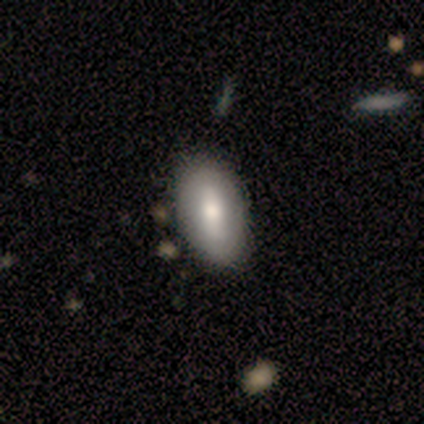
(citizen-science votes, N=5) A smooth galaxy with no disk features (60%) that is in between round and cigar-shaped (67%).

Vote fractions:
- Smooth or featured? smooth: 60% / featured or disk: 40% / star or artifact: 0%
- How rounded? in between: 67% / cigar-shaped: 33% / round: 0%
- Merging? none: 80% / minor disturbance: 20% / major disturbance: 0% / merger: 0%